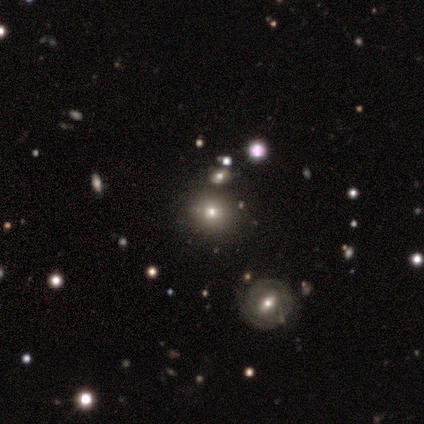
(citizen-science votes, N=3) Smooth or featured?
  - smooth: 33% * (tied)
  - featured or disk: 33% * (tied)
  - star or artifact: 33% * (tied)
How rounded?
  - round: 100% *
  - in between: 0%
  - cigar-shaped: 0%
Merging?
  - none: 50% * (tied)
  - merger: 50% * (tied)
  - minor disturbance: 0%
  - major disturbance: 0%